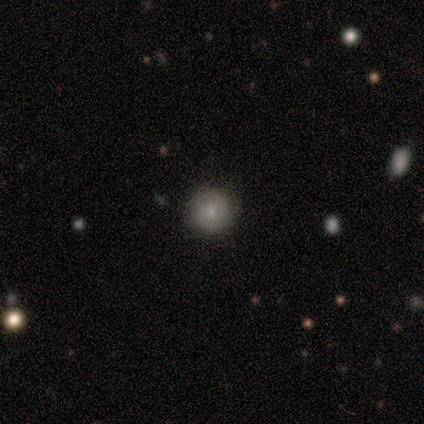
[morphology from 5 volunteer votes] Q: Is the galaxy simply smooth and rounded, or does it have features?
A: smooth — 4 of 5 (80%).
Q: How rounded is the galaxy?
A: round — 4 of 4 (100%).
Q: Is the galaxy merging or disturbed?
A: none — 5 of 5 (100%).